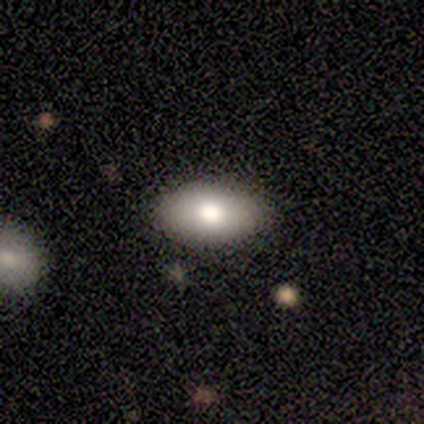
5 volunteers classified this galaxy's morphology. Smooth or featured: smooth — 100%
How rounded: in between — 80% (round — 20%)
Merging: none — 100%